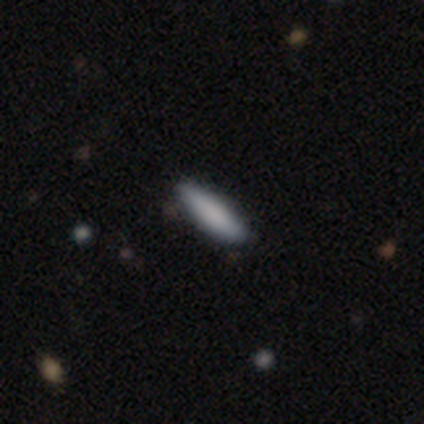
A smooth galaxy with no disk features (100%) that is cigar-shaped (60%).

Vote fractions:
- Smooth or featured? smooth: 100% / featured or disk: 0% / star or artifact: 0%
- How rounded? cigar-shaped: 60% / in between: 40% / round: 0%
- Merging? none: 80% / minor disturbance: 20% / major disturbance: 0% / merger: 0%